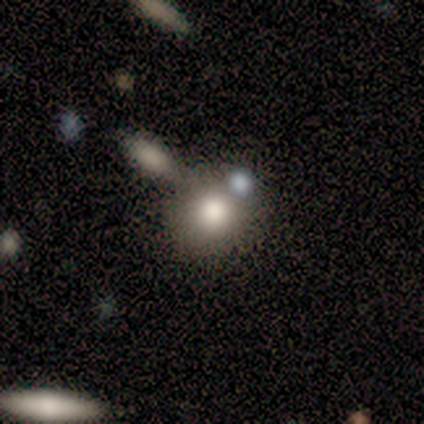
Volunteers were most divided on "merging": none: 75%, merger: 25%, minor disturbance: 0%, major disturbance: 0%. More confident: how rounded — round (100%); smooth or featured — smooth (80%).